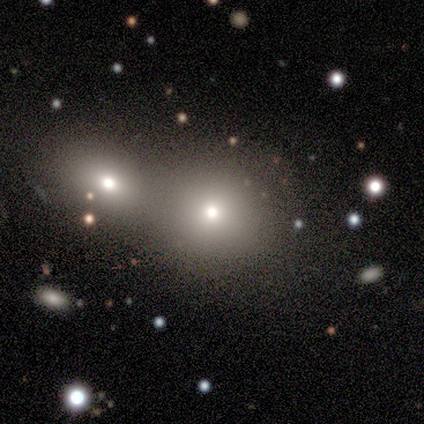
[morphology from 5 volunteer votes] Volunteers were most divided on "smooth or featured": smooth: 60%, star or artifact: 40%, featured or disk: 0%. More confident: how rounded — round (67%); merging — none (67%).